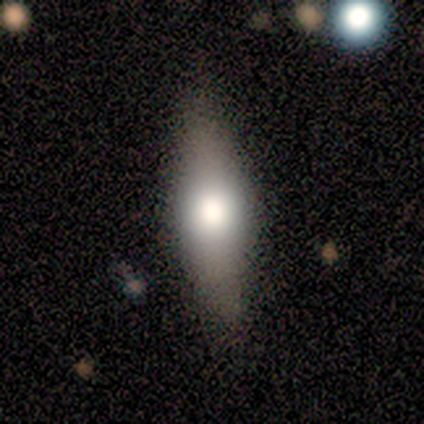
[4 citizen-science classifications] This appears to be a smooth galaxy with no disk features (50%, tied with featured or disk) that is in between round and cigar-shaped (50%, tied with cigar-shaped). Merging: none (100%).